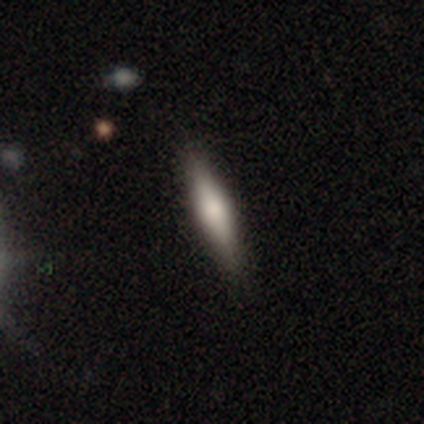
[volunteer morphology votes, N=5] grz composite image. It shows a smooth galaxy with no disk features (80%) that is cigar-shaped (75%). Merging: none (80%).